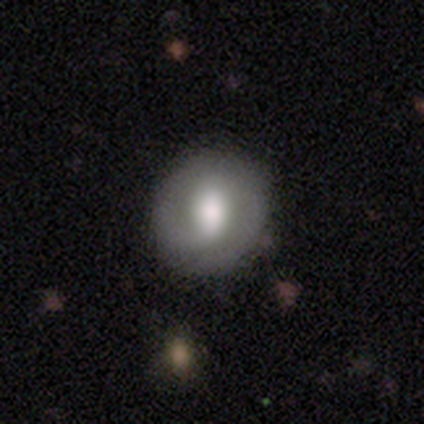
Smooth or featured? featured or disk (60%)
Edge-on disk? no (92%)
Bar? weak (59%)
Spiral arms? yes (86%)
Spiral winding? tight (47%)
Spiral arm count? 2 (63%)
Bulge size? large (45%)
Merging? none (54%)